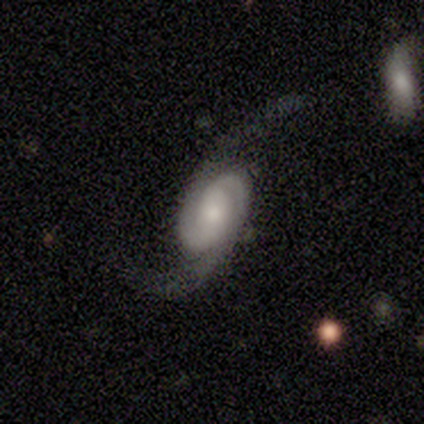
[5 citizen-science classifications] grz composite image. It shows a featured or disk galaxy (100%) with no bar (60%), 2 (100%) medium (40%, tied with loose) spiral arms (100%) and a moderate central bulge (80%). Merging: major disturbance (60%).